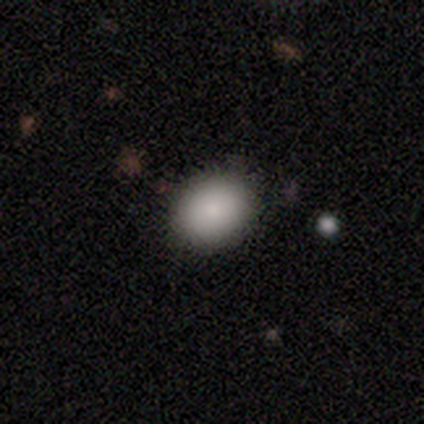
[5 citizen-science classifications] Smooth or featured?
  - smooth: 80% *
  - star or artifact: 20%
  - featured or disk: 0%
How rounded?
  - in between: 100% *
  - round: 0%
  - cigar-shaped: 0%
Merging?
  - none: 100% *
  - minor disturbance: 0%
  - major disturbance: 0%
  - merger: 0%